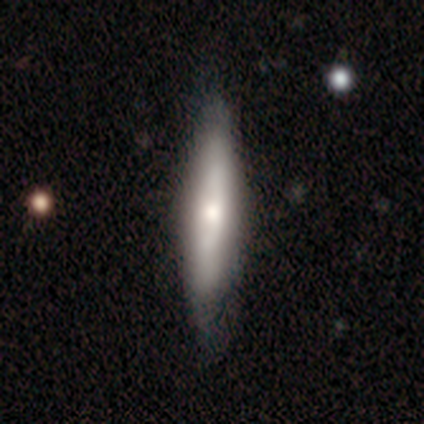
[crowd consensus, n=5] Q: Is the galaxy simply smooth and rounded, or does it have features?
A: smooth — 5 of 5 (100%).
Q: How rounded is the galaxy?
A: cigar-shaped — 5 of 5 (100%).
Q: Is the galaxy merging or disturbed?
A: none — 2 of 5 (40%).